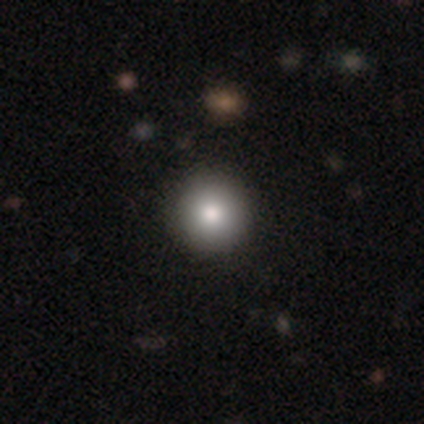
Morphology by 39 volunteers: Smooth or featured? 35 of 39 (90%) said smooth. How rounded? 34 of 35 (97%) said round. Merging? 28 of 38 (74%) said none.